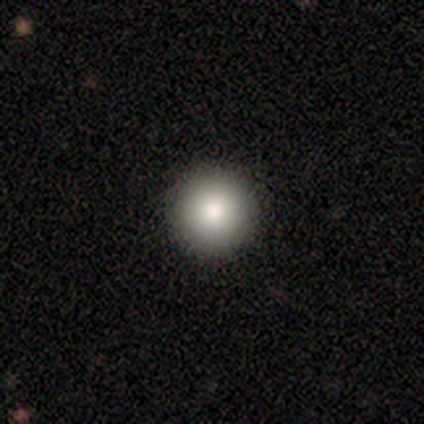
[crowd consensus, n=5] smooth_or_featured: smooth (p=0.80) [alt: featured or disk p=0.20]
how_rounded: round (p=1.00)
merging: none (p=1.00)